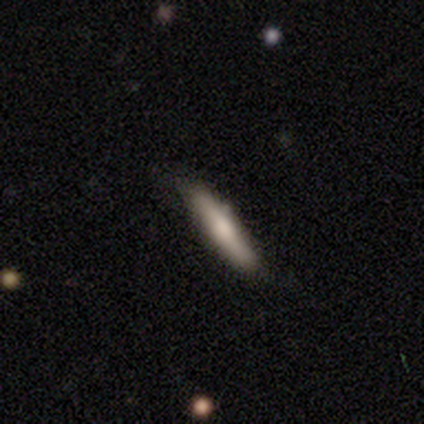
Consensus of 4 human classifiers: This is likely a smooth galaxy (75%). How rounded: clearly cigar-shaped (100%). Merging: clearly none (100%).